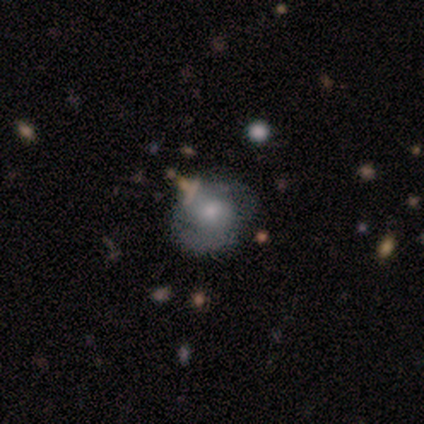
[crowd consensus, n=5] Volunteers were most divided on "spiral winding" (3-way tie): tight: 33%, medium: 33%, loose: 33%. More confident: edge-on disk — no (100%); spiral arms — yes (100%); bar — weak (67%); spiral arm count — 2 (67%); bulge size — small (67%); smooth or featured — featured or disk (60%); merging — none (60%).